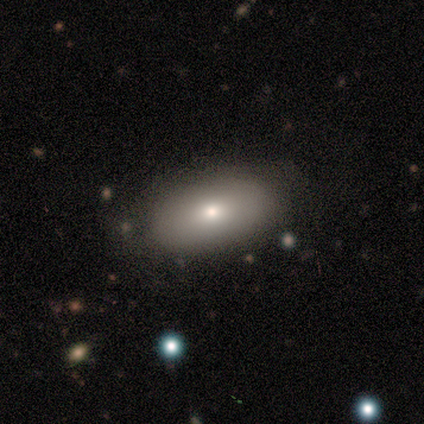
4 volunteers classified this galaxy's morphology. Smooth or featured? 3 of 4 (75%) said smooth. How rounded? 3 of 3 (100%) said in between. Merging? 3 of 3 (100%) said none.